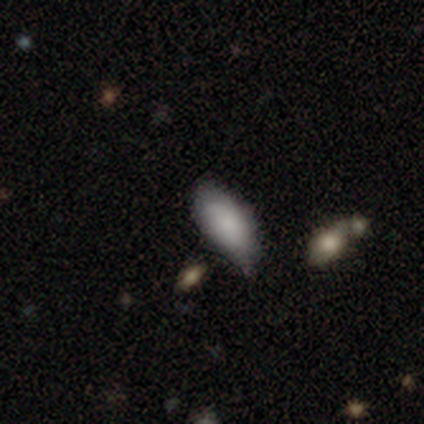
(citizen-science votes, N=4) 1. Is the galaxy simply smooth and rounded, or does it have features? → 100% smooth, 0% featured or disk, 0% star or artifact.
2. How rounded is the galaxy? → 75% in between, 25% cigar-shaped, 0% round.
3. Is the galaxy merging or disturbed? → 50% none (tied), 50% minor disturbance (tied), 0% major disturbance, 0% merger.